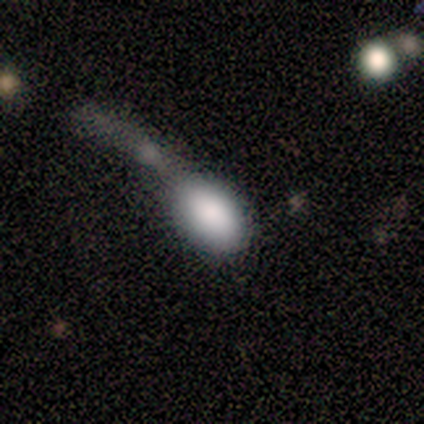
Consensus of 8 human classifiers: This appears to be a smooth galaxy with no disk features (100%) that is in between round and cigar-shaped (88%). Merging: minor disturbance (38%).